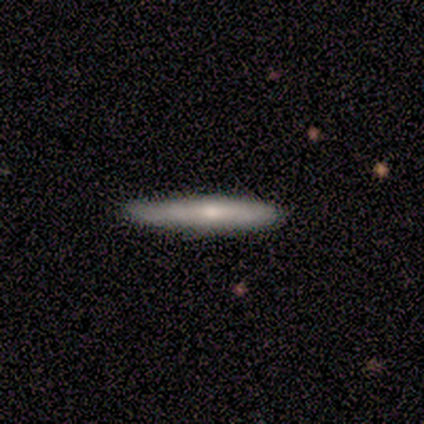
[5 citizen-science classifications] smooth_or_featured: smooth (p=1.00)
how_rounded: cigar-shaped (p=1.00)
merging: none (p=1.00)